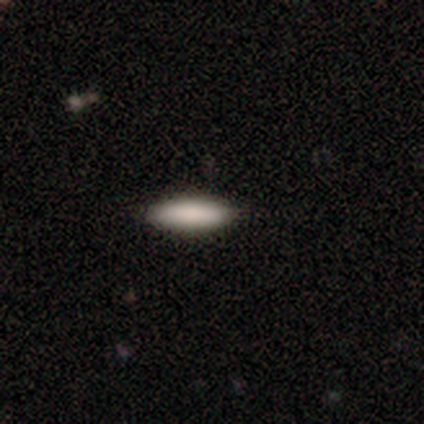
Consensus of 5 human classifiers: Smooth or featured? 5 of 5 (100%) said smooth. How rounded? 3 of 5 (60%) said in between. Merging? 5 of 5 (100%) said none.